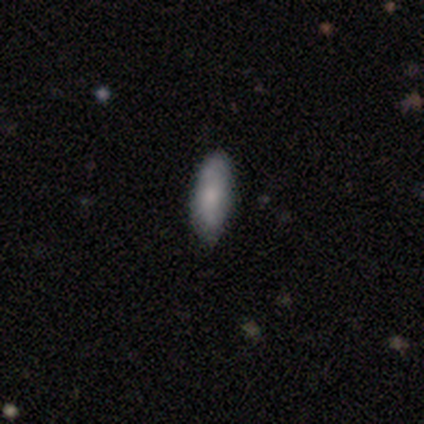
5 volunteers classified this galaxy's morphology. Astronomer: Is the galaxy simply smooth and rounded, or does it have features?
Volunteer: smooth — 60%.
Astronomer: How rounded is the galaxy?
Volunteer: in between — 67%.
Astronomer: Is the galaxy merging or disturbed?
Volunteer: none — 100%.